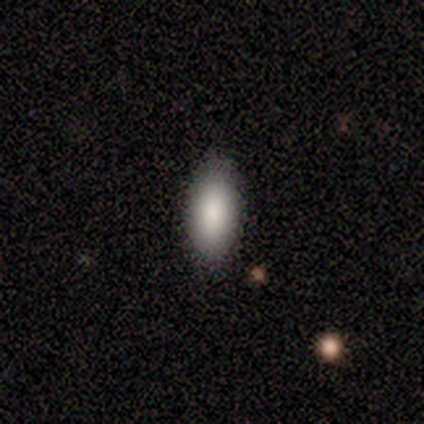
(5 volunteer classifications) smooth-or-featured: smooth: 100% | featured or disk: 0% | star or artifact: 0%
  how-rounded: in between: 80% | round: 20% | cigar-shaped: 0%
  merging: none: 100% | minor disturbance: 0% | major disturbance: 0% | merger: 0%